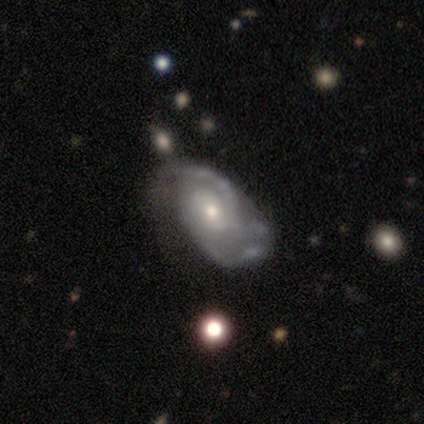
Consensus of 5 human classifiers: Overall: featured or disk (80%). Edge-on disk: no (100%). Bar: no (100%). Spiral arms: yes (100%). Spiral arm count: 2 (50%; 4 25%). Spiral winding: tight (75%). Bulge size: small (75%). Merging: none (60%; minor disturbance 20%).